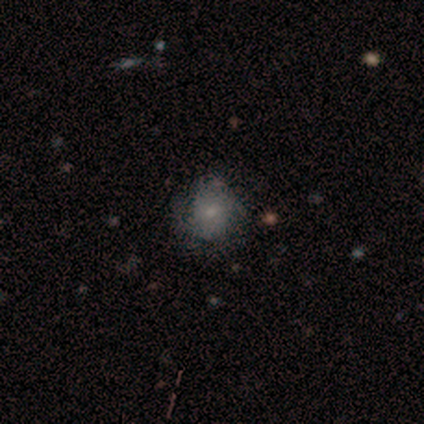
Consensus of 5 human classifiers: This is marginally a smooth galaxy (40%, tied with star or artifact). How rounded: clearly round (100%). Merging: clearly none (100%).